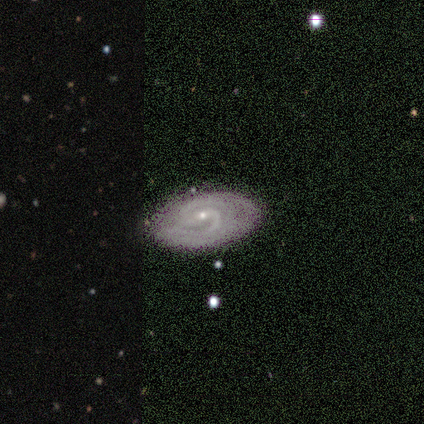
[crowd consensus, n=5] This appears to be a featured or disk galaxy (100%) with a strong bar (40%, tied with weak), 2 (40%, tied with can't tell) tight (80%) spiral arms (100%) and a small central bulge (80%). Merging: none (60%).